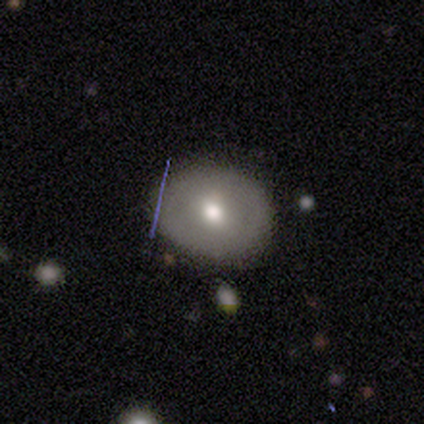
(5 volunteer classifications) This is likely a smooth galaxy (60%). How rounded: likely round (67%). Merging: clearly none (100%).